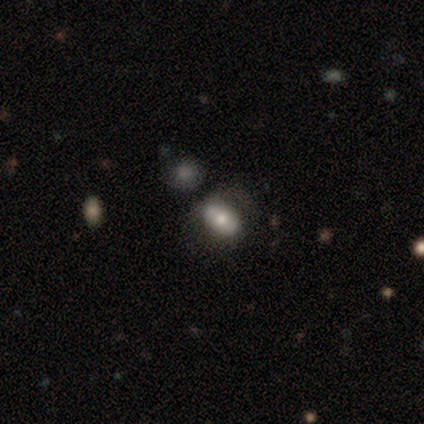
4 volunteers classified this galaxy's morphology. A smooth galaxy with no disk features (75%) that is in between round and cigar-shaped (100%).

Vote fractions:
- Smooth or featured? smooth: 75% / star or artifact: 25% / featured or disk: 0%
- How rounded? in between: 100% / round: 0% / cigar-shaped: 0%
- Merging? none: 33% (tied) / minor disturbance: 33% (tied) / major disturbance: 33% (tied) / merger: 0%